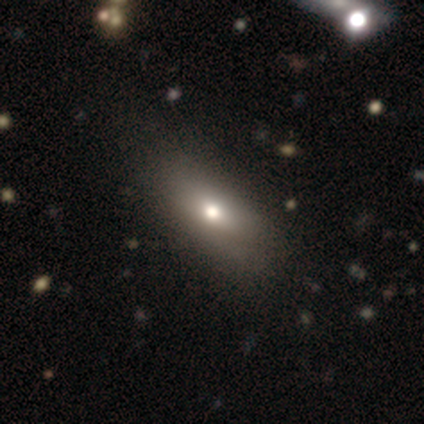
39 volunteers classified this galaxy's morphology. Q: Smooth or featured?
A: smooth (56%); runner-up: featured or disk (33%)
Q: How rounded?
A: in between (95%); runner-up: cigar-shaped (5%)
Q: Merging?
A: none (97%); runner-up: minor disturbance (3%)